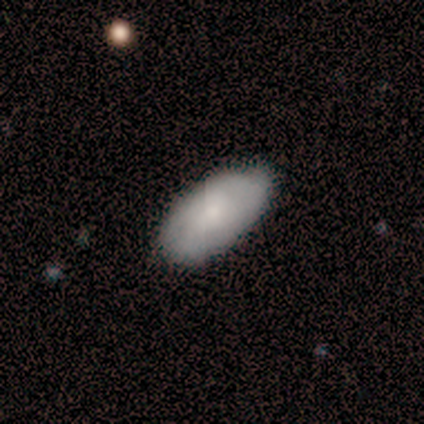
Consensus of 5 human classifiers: This is clearly a smooth galaxy (80%). How rounded: clearly in between (100%). Merging: clearly none (80%).